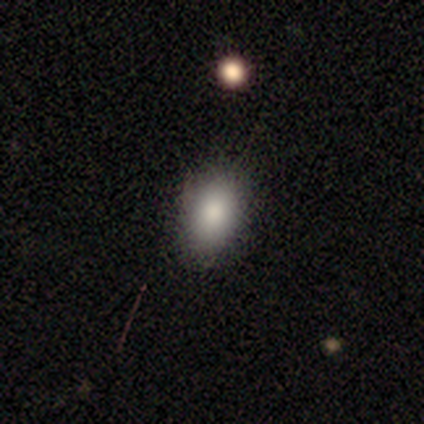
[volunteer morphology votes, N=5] smooth-or-featured: smooth: 60% | featured or disk: 20% | star or artifact: 20%
  how-rounded: in between: 100% | round: 0% | cigar-shaped: 0%
  merging: none: 50% (tied) | minor disturbance: 50% (tied) | major disturbance: 0% | merger: 0%